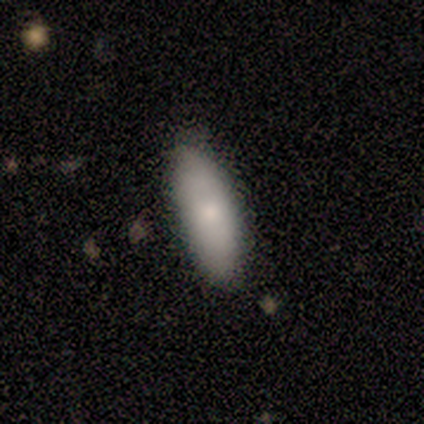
Morphology: type=smooth (67%); roundness=in between (100%); merging=none (100%).